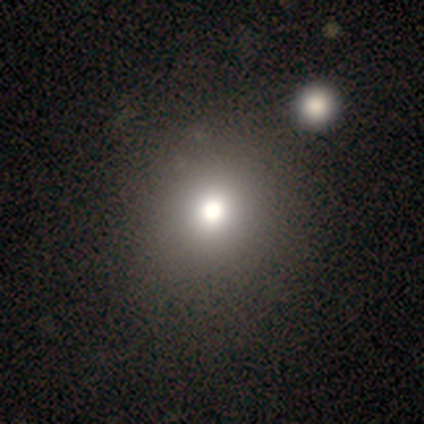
A smooth galaxy with no disk features (100%) that is round (100%).

Vote fractions:
- Smooth or featured? smooth: 100% / featured or disk: 0% / star or artifact: 0%
- How rounded? round: 100% / in between: 0% / cigar-shaped: 0%
- Merging? none: 80% / merger: 20% / minor disturbance: 0% / major disturbance: 0%